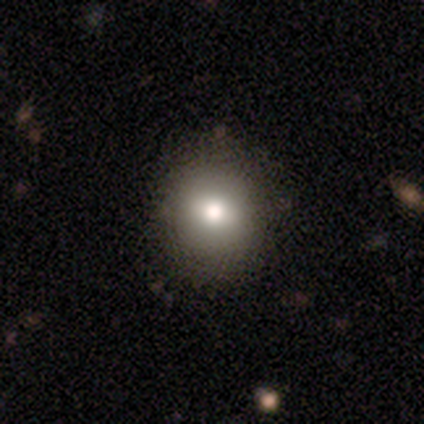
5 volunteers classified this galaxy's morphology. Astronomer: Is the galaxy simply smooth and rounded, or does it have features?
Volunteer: star or artifact — 60%.